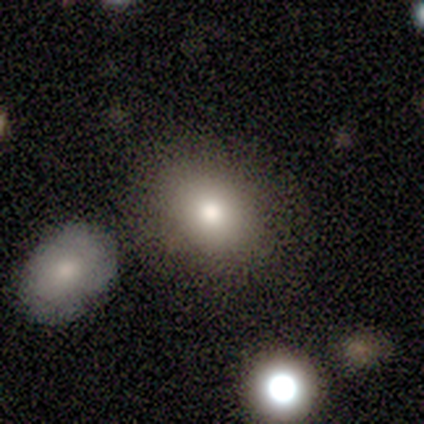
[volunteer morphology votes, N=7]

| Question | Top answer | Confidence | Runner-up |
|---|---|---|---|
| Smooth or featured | smooth | 86% | featured or disk (14%) |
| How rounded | in between | 67% | round (33%) |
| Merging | none | 57% | minor disturbance (43%) |